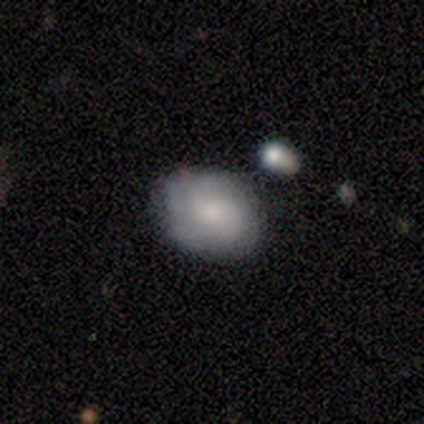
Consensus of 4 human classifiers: Smooth or featured? smooth (75%)
How rounded? in between (100%)
Merging? none (50%, tied with minor disturbance)